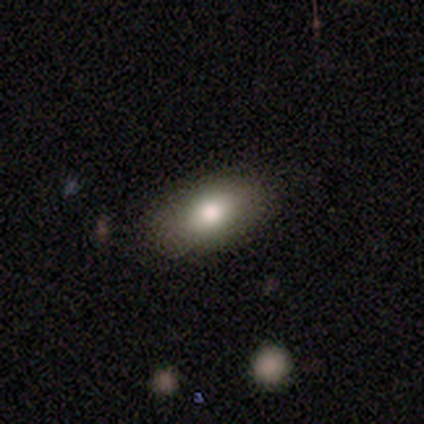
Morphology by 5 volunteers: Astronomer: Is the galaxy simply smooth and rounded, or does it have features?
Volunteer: smooth — 80%.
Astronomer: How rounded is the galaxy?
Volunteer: in between — 75%.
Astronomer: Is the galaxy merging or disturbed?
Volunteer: none — 80%.